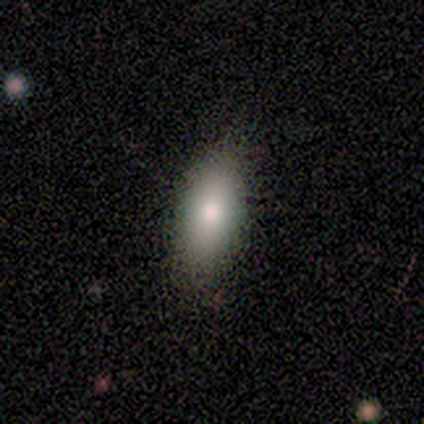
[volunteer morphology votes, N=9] Smooth or featured? 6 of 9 (67%) said smooth. How rounded? 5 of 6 (83%) said in between. Merging? 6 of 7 (86%) said none.